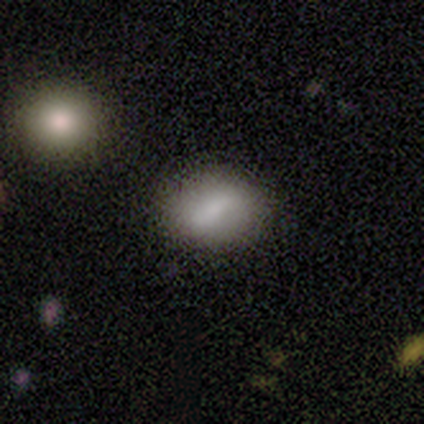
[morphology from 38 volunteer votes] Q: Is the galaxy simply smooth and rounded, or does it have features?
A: smooth — 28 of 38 (74%).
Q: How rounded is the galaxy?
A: in between — 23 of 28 (82%).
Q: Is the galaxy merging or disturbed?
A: none — 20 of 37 (54%).